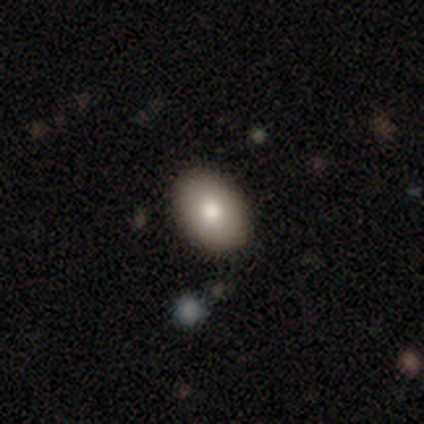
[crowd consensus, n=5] Smooth or featured? 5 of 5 (100%) said smooth. How rounded? 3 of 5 (60%) said in between. Merging? 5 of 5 (100%) said none.